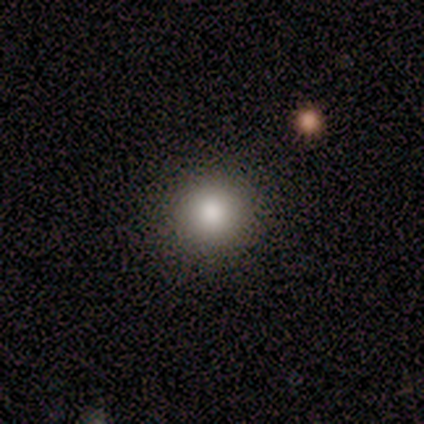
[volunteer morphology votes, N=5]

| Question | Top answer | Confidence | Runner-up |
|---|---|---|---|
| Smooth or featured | smooth | 80% | star or artifact (20%) |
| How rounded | round | 100% | — |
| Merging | none | 100% | — |